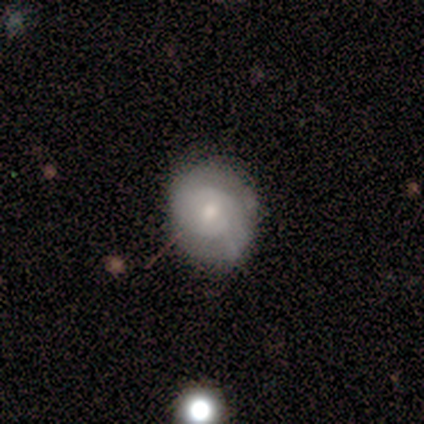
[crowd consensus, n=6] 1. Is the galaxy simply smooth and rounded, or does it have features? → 67% smooth, 33% featured or disk, 0% star or artifact.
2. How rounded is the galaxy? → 100% round, 0% in between, 0% cigar-shaped.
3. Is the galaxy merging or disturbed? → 100% none, 0% minor disturbance, 0% major disturbance, 0% merger.